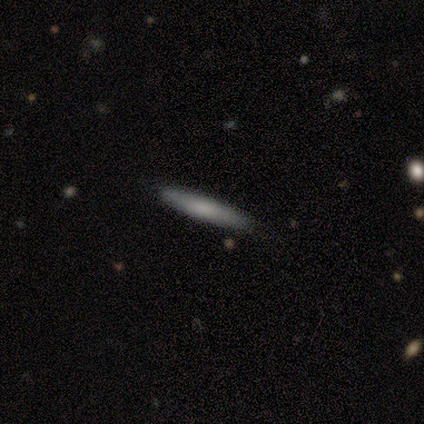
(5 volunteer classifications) This appears to be a smooth galaxy with no disk features (100%) that is cigar-shaped (100%). Merging: none (80%).